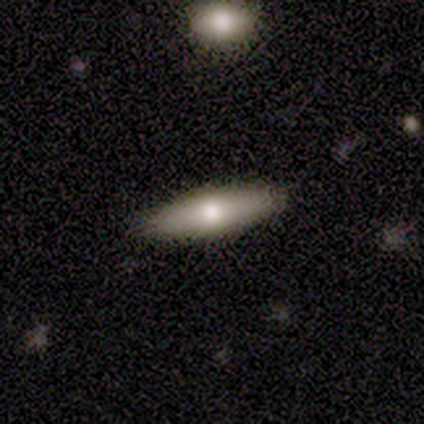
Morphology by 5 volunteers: A featured or disk galaxy (60%) viewed edge-on (67%) with a rounded central bulge (100%). Merging: none (100%).